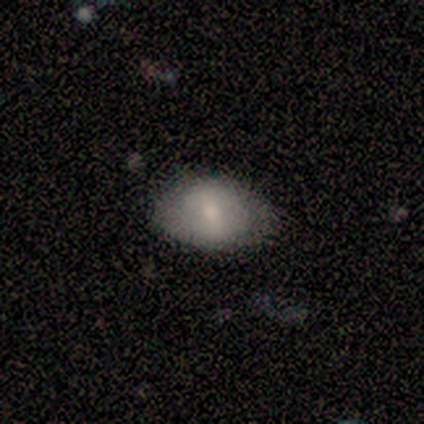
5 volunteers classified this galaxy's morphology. This is clearly a smooth galaxy (80%). How rounded: clearly in between (100%). Merging: clearly none (80%).